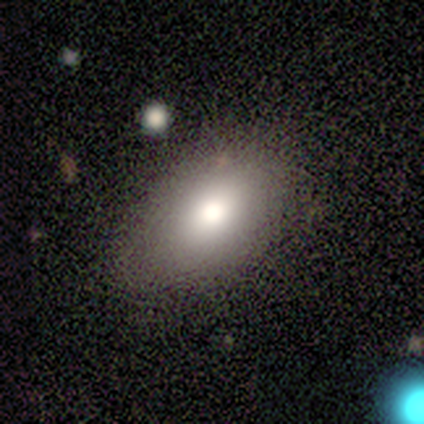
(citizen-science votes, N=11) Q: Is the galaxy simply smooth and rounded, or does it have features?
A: smooth — 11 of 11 (100%).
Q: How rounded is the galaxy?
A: in between — 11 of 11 (100%).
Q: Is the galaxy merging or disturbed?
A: none — 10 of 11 (91%).